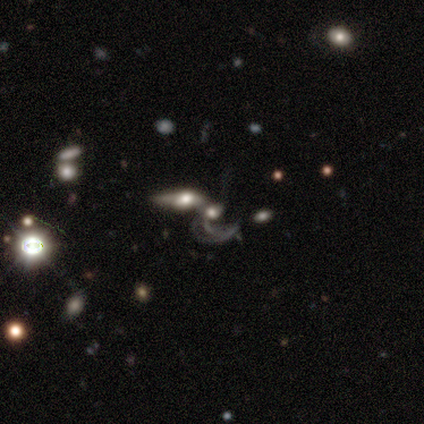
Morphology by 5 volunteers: Q: Smooth or featured?
A: featured or disk (100%)
Q: Edge-on disk?
A: no (100%)
Q: Bar?
A: no (60%); runner-up: weak (40%)
Q: Spiral arms?
A: no (60%); runner-up: yes (40%)
Q: Bulge size?
A: large (40%); runner-up: dominant (20%)
Q: Merging?
A: merger (100%)